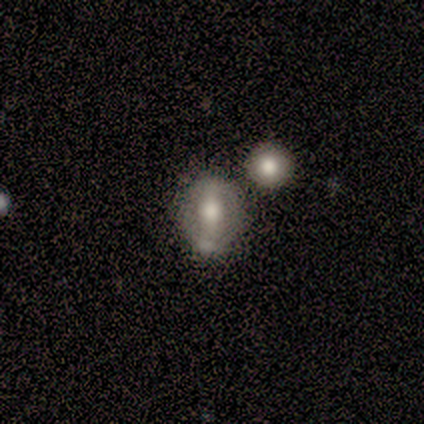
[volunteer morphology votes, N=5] This is likely a smooth galaxy (60%). How rounded: likely round (67%). Merging: marginally none (40%, tied with merger).